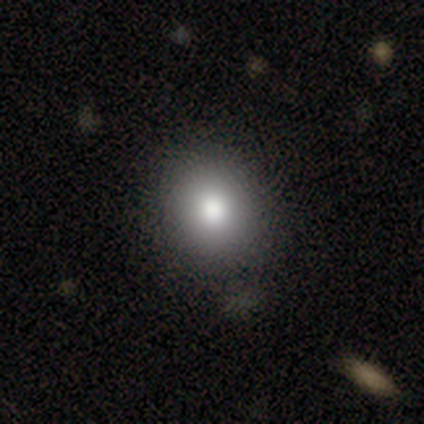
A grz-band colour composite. It shows a smooth galaxy with no disk features (100%) that is round (75%). Merging: none (100%).